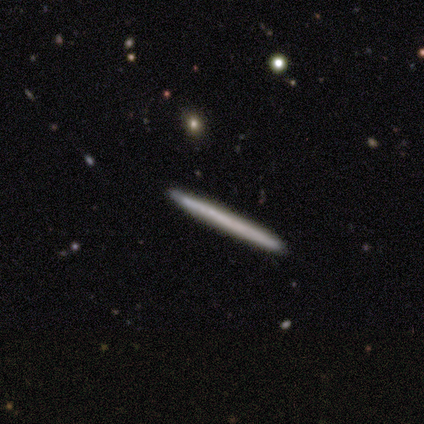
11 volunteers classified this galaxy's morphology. Volunteers were most divided on "smooth or featured" (2-way tie): smooth: 45%, featured or disk: 45%, star or artifact: 9%. More confident: how rounded — cigar-shaped (100%); merging — none (100%).